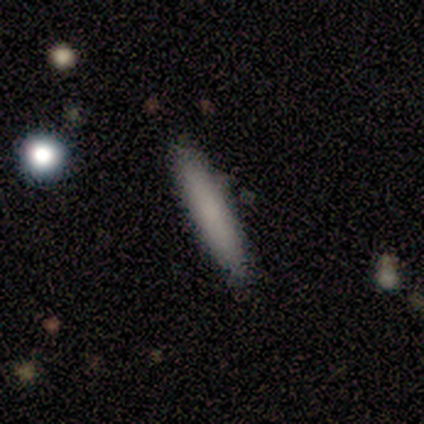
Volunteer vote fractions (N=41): Q: Smooth or featured?
A: smooth (90%); runner-up: featured or disk (10%)
Q: How rounded?
A: cigar-shaped (89%); runner-up: in between (11%)
Q: Merging?
A: none (90%); runner-up: minor disturbance (7%)